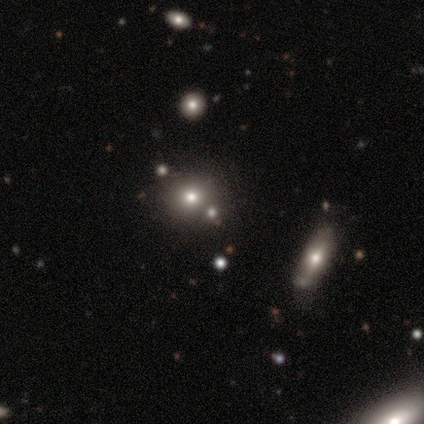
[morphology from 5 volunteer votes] Smooth or featured? 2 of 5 (40%, tied with star or artifact) said smooth. How rounded? 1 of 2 (50%, tied with in between) said round. Merging? 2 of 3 (67%) said none.